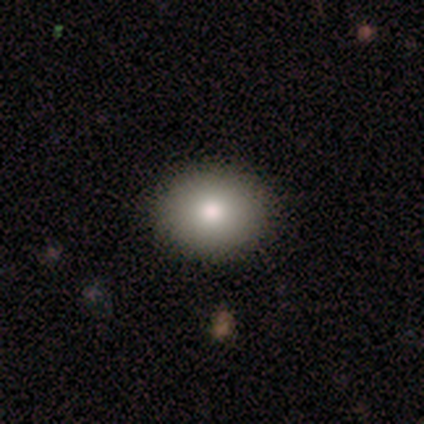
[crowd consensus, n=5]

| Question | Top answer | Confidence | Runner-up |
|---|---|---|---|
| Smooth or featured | smooth | 100% | — |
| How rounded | round | 60% | in between (40%) |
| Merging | none | 100% | — |